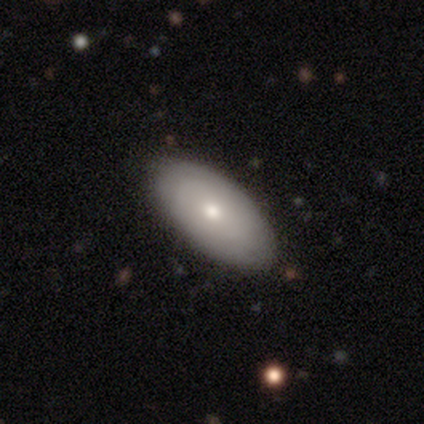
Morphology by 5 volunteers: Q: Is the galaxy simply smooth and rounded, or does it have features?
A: smooth — 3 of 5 (60%).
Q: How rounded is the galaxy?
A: round — 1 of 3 (33%, tied with in between and cigar-shaped).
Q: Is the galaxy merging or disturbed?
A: none — 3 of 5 (60%).